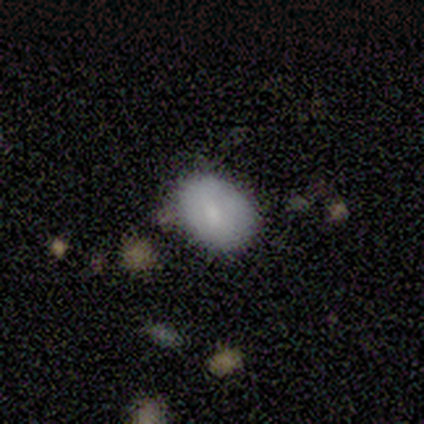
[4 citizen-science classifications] smooth_or_featured: smooth (p=0.50) [alt: featured or disk p=0.25]
how_rounded: round (p=0.50) [tied with: in between p=0.50]
merging: none (p=1.00)